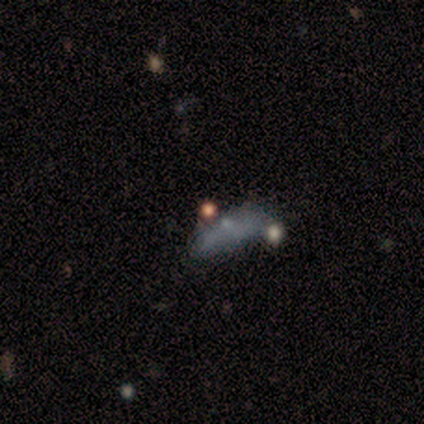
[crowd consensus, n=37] smooth-or-featured: smooth: 59% | star or artifact: 22% | featured or disk: 19%
  how-rounded: in between: 77% | cigar-shaped: 18% | round: 5%
  merging: none: 45% | minor disturbance: 28% | merger: 17% | major disturbance: 10%